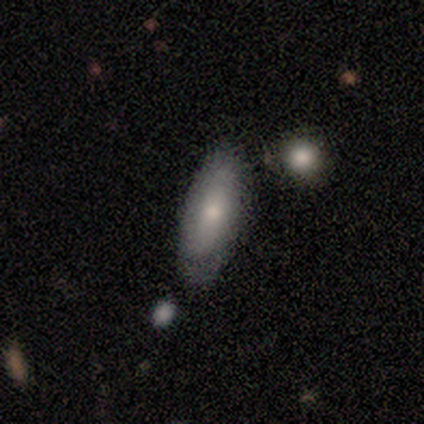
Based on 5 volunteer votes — This appears to be a featured or disk galaxy (60%) with no bar (100%), no spiral arms (67%) and a moderate central bulge (100%). Merging: none (60%).